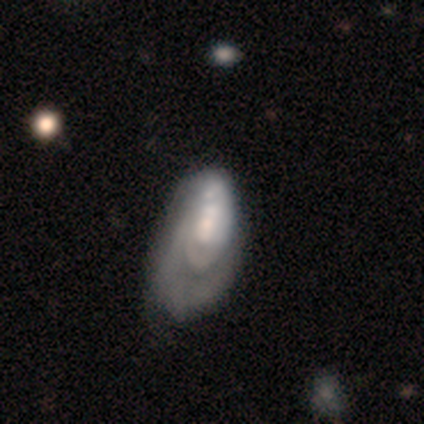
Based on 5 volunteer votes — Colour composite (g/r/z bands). It shows a smooth galaxy with no disk features (80%) that is in between round and cigar-shaped (100%). Merging: major disturbance (100%).